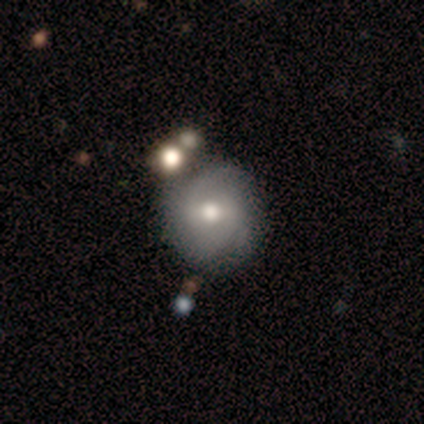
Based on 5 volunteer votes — Smooth or featured? featured or disk (60%)
Edge-on disk? no (100%)
Bar? weak (100%)
Spiral arms? yes (67%)
Spiral winding? tight (50%, tied with loose)
Spiral arm count? 2 (100%)
Bulge size? moderate (100%)
Merging? none (50%)